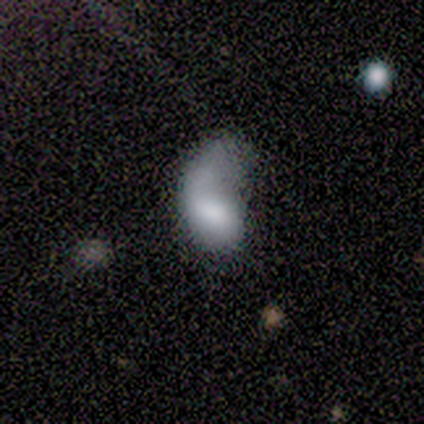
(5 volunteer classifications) Smooth or featured: featured or disk — 60% (smooth — 40%)
Edge-on disk: no — 100%
Bar: no — 67% (weak — 33%)
Spiral arms: yes — 67% (no — 33%)
Spiral winding: medium — 50% (tied with loose — 50%)
Spiral arm count: 1 — 100%
Bulge size: dominant — 33% (tied with moderate — 33%; none — 33%)
Merging: minor disturbance — 40% (none — 20%)